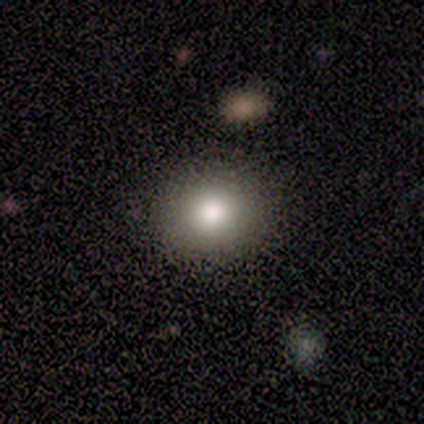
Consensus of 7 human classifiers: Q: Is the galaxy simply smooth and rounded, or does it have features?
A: smooth — 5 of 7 (71%).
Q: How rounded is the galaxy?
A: round — 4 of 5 (80%).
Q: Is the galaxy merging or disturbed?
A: none — 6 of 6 (100%).